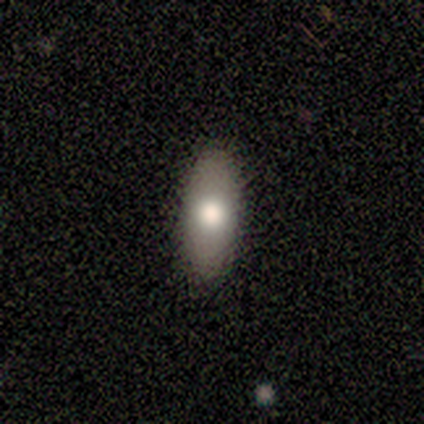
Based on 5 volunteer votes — Smooth or featured? smooth (80%)
How rounded? in between (100%)
Merging? none (100%)